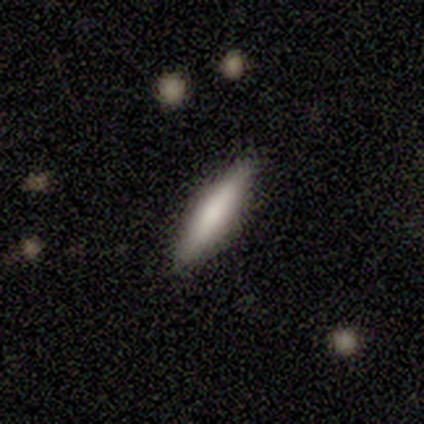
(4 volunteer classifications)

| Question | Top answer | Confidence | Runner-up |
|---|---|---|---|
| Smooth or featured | smooth | 50% | tied: featured or disk (50%) |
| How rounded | cigar-shaped | 100% | — |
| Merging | none | 75% | minor disturbance (25%) |